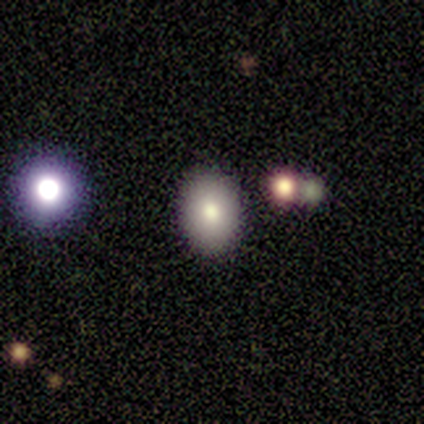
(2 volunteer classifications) Overall: featured or disk (50%, tied with star or artifact). Edge-on disk: no (100%). Bar: no (100%). Spiral arms: no (100%). Bulge size: dominant (100%). Merging: minor disturbance (100%).